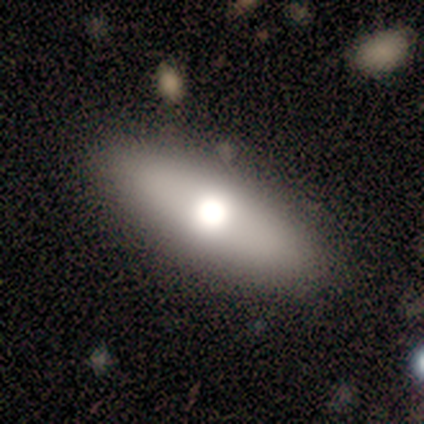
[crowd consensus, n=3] A smooth galaxy with no disk features (100%) that is cigar-shaped (67%).

Vote fractions:
- Smooth or featured? smooth: 100% / featured or disk: 0% / star or artifact: 0%
- How rounded? cigar-shaped: 67% / in between: 33% / round: 0%
- Merging? none: 67% / minor disturbance: 33% / major disturbance: 0% / merger: 0%